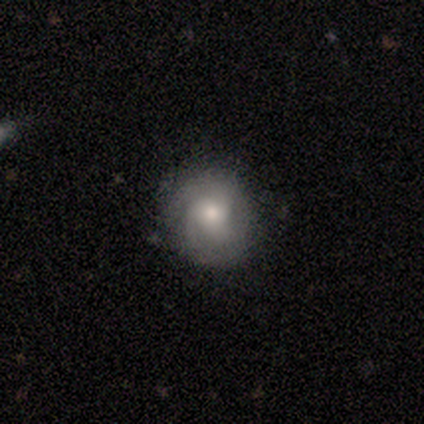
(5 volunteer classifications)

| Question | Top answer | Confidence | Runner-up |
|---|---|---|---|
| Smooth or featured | featured or disk | 80% | star or artifact (20%) |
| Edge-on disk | no | 100% | — |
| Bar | weak | 50% | tied: no (50%) |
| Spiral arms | yes | 100% | — |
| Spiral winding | tight | 75% | loose (25%) |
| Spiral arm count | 2 | 50% | tied: 3 (50%) |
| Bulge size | small | 75% | moderate (25%) |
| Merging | none | 75% | minor disturbance (25%) |